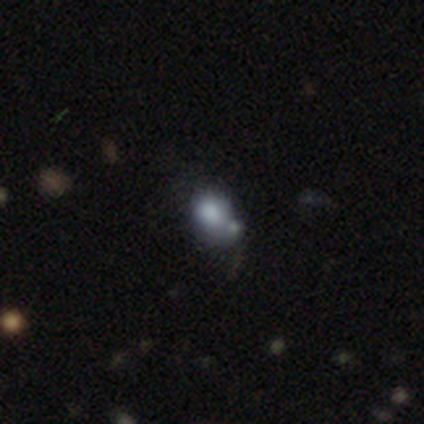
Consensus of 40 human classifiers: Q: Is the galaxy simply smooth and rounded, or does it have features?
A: smooth — 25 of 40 (62%).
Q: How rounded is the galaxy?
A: round — 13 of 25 (52%).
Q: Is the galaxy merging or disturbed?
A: merger — 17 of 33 (52%).